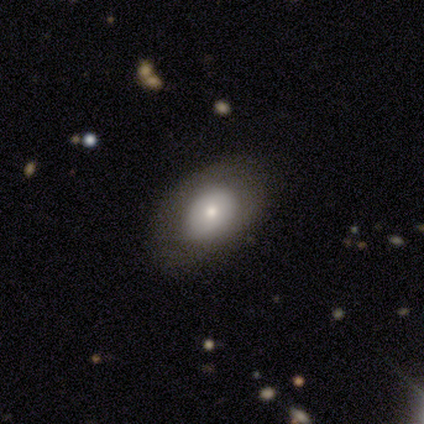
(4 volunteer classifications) Smooth or featured: smooth — 50% (tied with featured or disk — 50%)
How rounded: round — 50% (tied with in between — 50%)
Merging: none — 50% (tied with minor disturbance — 50%)